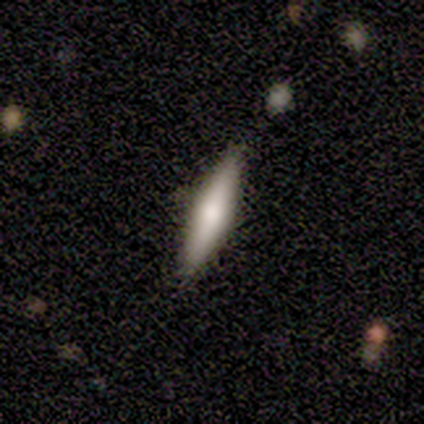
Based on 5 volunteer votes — A smooth galaxy with no disk features (80%) that is cigar-shaped (75%). Merging: none (100%).